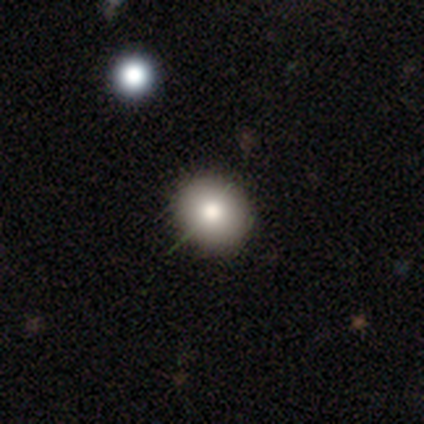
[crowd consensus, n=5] A smooth galaxy with no disk features (60%) that is round (67%). Merging: none (75%).